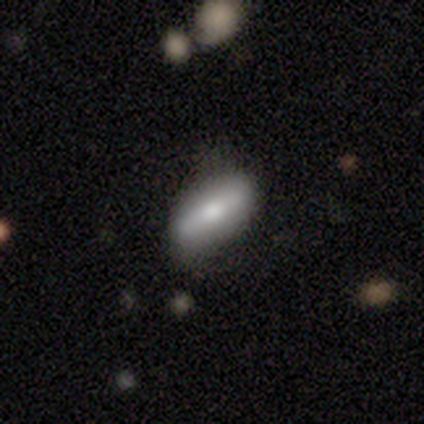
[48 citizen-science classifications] Smooth or featured: smooth — 62% (featured or disk — 23%)
How rounded: in between — 73% (cigar-shaped — 27%)
Merging: none — 73% (minor disturbance — 24%)